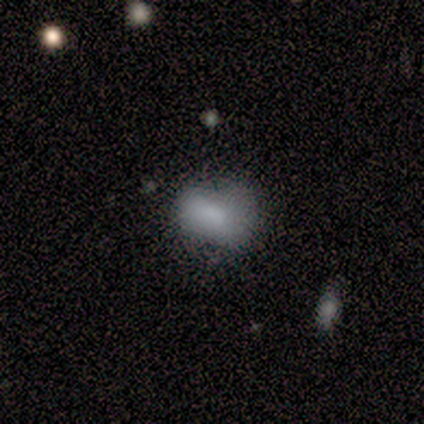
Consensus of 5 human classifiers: This is clearly a smooth galaxy (100%). How rounded: clearly in between (80%). Merging: clearly none (80%).